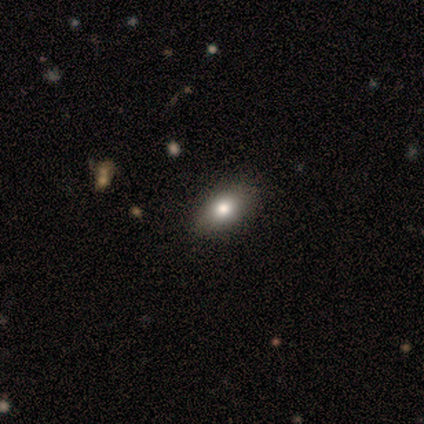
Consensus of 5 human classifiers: Q: Smooth or featured?
A: smooth (80%); runner-up: star or artifact (20%)
Q: How rounded?
A: in between (100%)
Q: Merging?
A: none (100%)